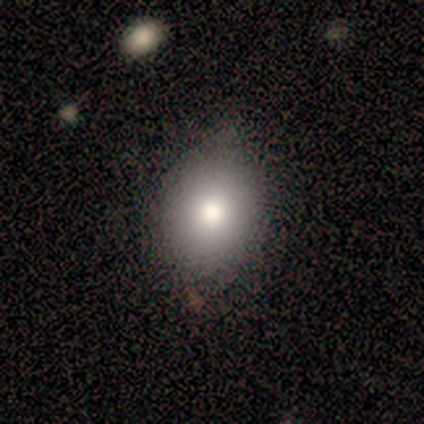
This appears to be a smooth galaxy with no disk features (75%) that is in between round and cigar-shaped (67%). Merging: none (86%).